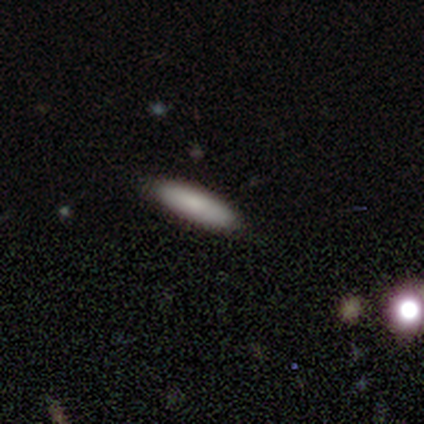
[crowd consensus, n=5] This is clearly a smooth galaxy (80%). How rounded: possibly in between (50%, tied with cigar-shaped). Merging: clearly none (80%).